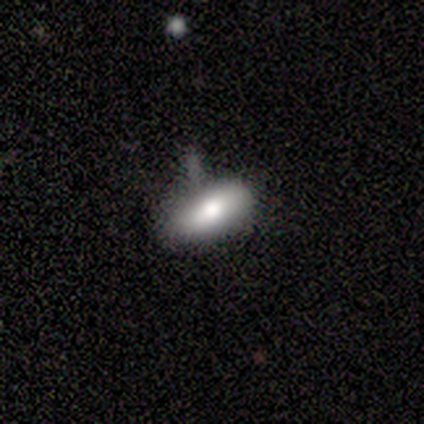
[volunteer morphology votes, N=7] Smooth or featured?
  - smooth: 100% *
  - featured or disk: 0%
  - star or artifact: 0%
How rounded?
  - in between: 71% *
  - cigar-shaped: 29%
  - round: 0%
Merging?
  - none: 57% *
  - minor disturbance: 43%
  - major disturbance: 0%
  - merger: 0%